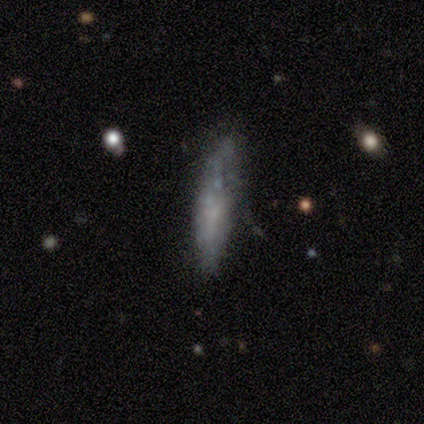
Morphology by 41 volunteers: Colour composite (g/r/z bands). It shows a featured or disk galaxy (61%) with no bar (100%), no spiral arms (79%) and no central bulge (71%). Merging: none (38%).